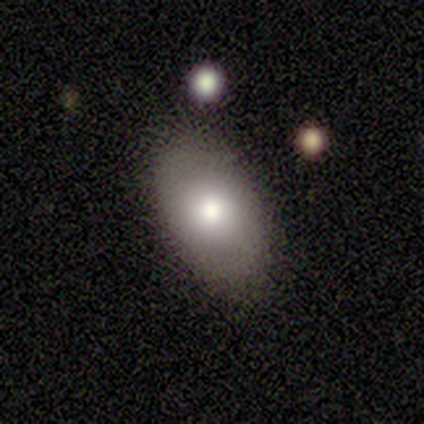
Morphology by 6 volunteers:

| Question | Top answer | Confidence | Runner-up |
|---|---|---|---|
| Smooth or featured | smooth | 83% | featured or disk (17%) |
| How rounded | in between | 80% | round (20%) |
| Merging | none | 50% | minor disturbance (33%) |